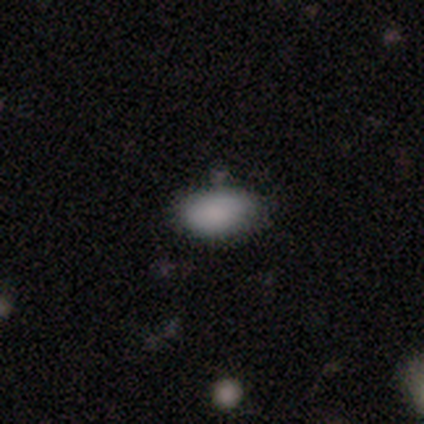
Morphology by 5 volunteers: Overall: smooth (100%). How rounded: in between (80%). Merging: none (80%).